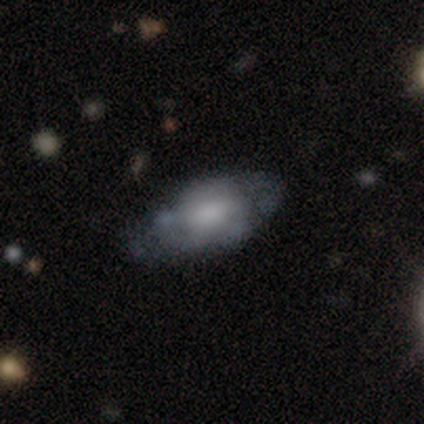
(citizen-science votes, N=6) Morphology: type=smooth (100%); roundness=in between (83%); merging=none (50%).